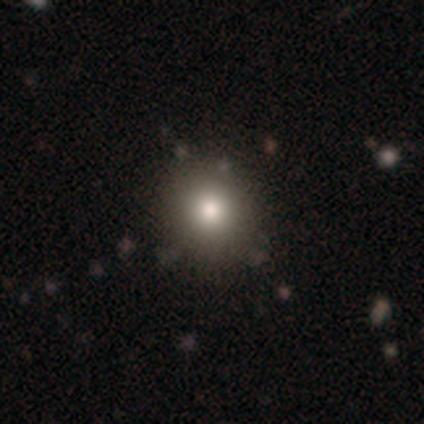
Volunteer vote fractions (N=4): This is likely a smooth galaxy (75%). How rounded: clearly round (100%). Merging: likely none (67%).